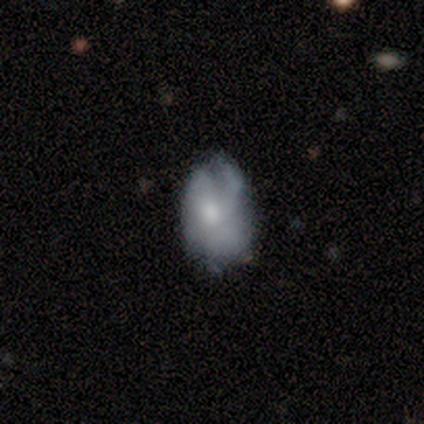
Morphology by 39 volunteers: A featured or disk galaxy (49%) with no bar (78%), tight (50%) spiral arms (67%) and a moderate central bulge (56%). Merging: minor disturbance (46%).